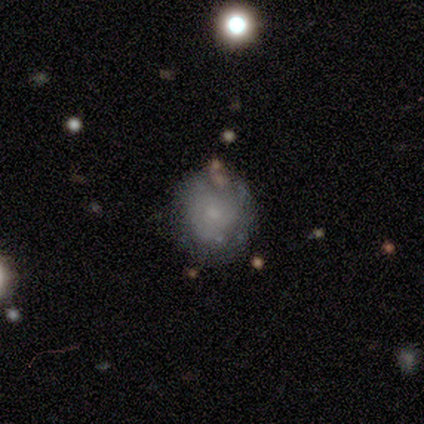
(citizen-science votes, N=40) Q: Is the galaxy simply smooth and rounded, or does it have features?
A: smooth — 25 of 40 (62%).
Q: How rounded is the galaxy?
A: round — 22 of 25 (88%).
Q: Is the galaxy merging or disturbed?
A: none — 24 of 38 (63%).